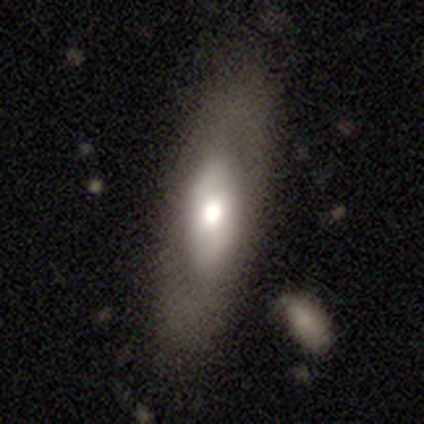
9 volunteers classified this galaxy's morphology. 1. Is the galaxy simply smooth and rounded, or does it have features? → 56% featured or disk, 33% smooth, 11% star or artifact.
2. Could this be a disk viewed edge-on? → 80% no, 20% yes.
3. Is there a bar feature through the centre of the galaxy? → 75% no, 25% weak, 0% strong.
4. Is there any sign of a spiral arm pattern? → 100% no, 0% yes.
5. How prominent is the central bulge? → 75% moderate, 25% large, 0% dominant, 0% small, 0% none.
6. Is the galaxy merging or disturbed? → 100% none, 0% minor disturbance, 0% major disturbance, 0% merger.